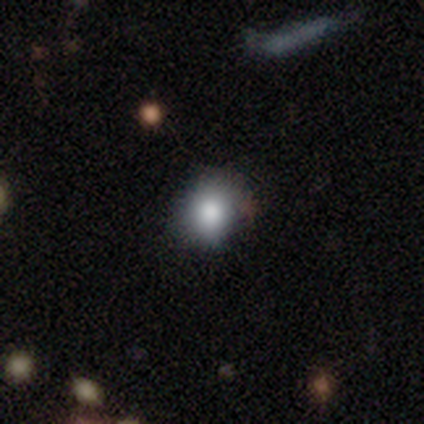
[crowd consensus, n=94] Smooth or featured: smooth — 78% (star or artifact — 16%)
How rounded: round — 81% (in between — 18%)
Merging: none — 76% (minor disturbance — 20%)